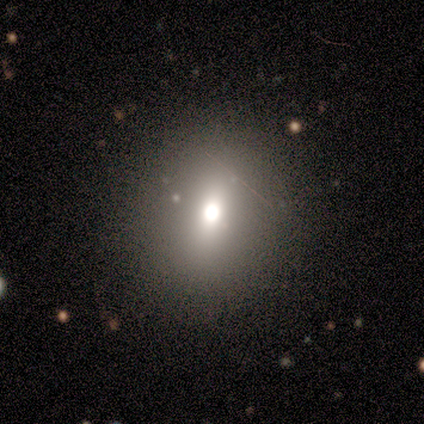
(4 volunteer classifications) smooth_or_featured: smooth (p=0.50) [tied with: star or artifact p=0.50]
how_rounded: round (p=0.50) [tied with: in between p=0.50]
merging: none (p=1.00)